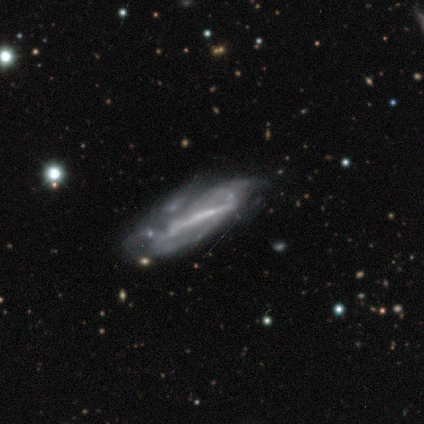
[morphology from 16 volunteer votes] Overall: featured or disk (56%; smooth 25%). Edge-on disk: no (89%). Bar: strong (100%). Spiral arms: no (62%; yes 38%). Bulge size: none (62%; moderate 25%). Merging: none (31%, tied with major disturbance).